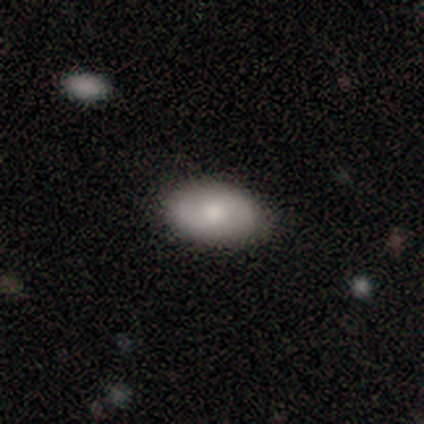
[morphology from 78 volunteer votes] A smooth galaxy with no disk features (79%) that is in between round and cigar-shaped (94%).

Vote fractions:
- Smooth or featured? smooth: 79% / featured or disk: 18% / star or artifact: 3%
- How rounded? in between: 94% / round: 6% / cigar-shaped: 0%
- Merging? none: 91% / minor disturbance: 8% / major disturbance: 1% / merger: 0%